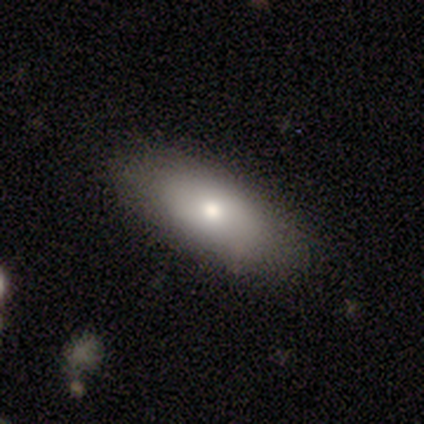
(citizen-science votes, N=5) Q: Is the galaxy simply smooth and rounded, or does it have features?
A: smooth — 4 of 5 (80%).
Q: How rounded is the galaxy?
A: in between — 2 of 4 (50%).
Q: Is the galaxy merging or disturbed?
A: none — 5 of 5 (100%).